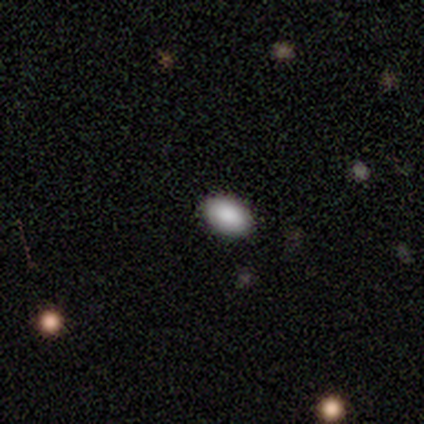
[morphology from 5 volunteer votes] This is clearly a smooth galaxy (80%). How rounded: clearly in between (100%). Merging: clearly none (100%).